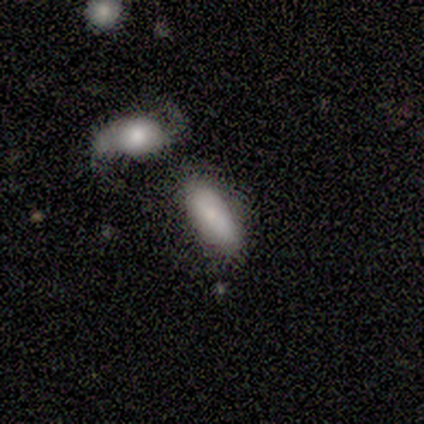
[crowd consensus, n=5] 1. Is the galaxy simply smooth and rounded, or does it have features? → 60% smooth, 40% featured or disk, 0% star or artifact.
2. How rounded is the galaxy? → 67% in between, 33% cigar-shaped, 0% round.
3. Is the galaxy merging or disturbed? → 40% none, 20% minor disturbance, 20% major disturbance, 20% merger.